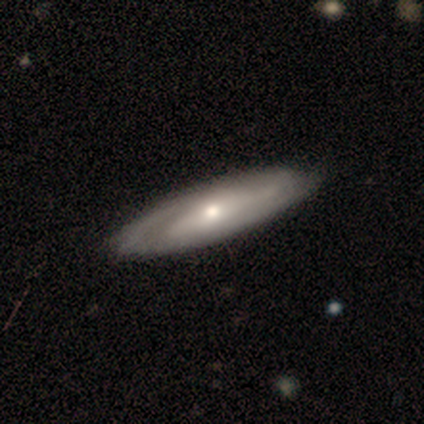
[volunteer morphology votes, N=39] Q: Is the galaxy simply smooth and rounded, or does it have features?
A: featured or disk — 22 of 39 (56%).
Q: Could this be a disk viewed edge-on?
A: no — 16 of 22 (73%).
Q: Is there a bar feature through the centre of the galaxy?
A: no — 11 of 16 (69%).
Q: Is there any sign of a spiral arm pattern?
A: yes — 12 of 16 (75%).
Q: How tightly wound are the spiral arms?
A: medium — 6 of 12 (50%).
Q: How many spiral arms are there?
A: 2 — 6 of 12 (50%).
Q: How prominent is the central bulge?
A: moderate — 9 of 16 (56%).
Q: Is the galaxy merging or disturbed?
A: none — 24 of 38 (63%).